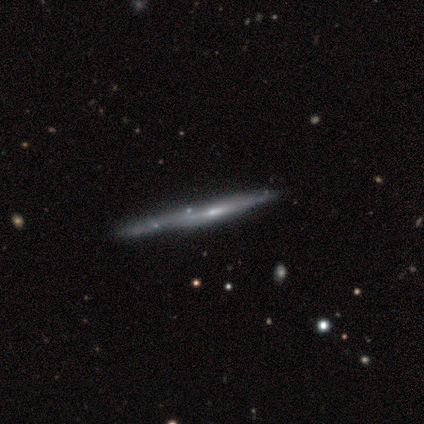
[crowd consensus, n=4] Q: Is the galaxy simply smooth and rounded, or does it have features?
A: featured or disk — 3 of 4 (75%).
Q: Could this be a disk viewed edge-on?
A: yes — 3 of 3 (100%).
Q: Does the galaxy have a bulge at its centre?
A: none — 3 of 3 (100%).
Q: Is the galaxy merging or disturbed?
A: none — 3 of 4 (75%).